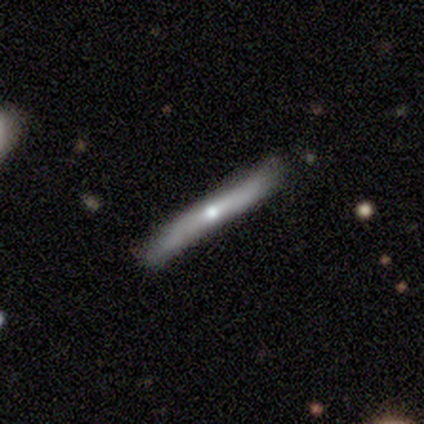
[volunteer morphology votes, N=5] smooth-or-featured: smooth: 80% | featured or disk: 20% | star or artifact: 0%
  how-rounded: cigar-shaped: 100% | round: 0% | in between: 0%
  merging: none: 60% | minor disturbance: 20% | merger: 20% | major disturbance: 0%